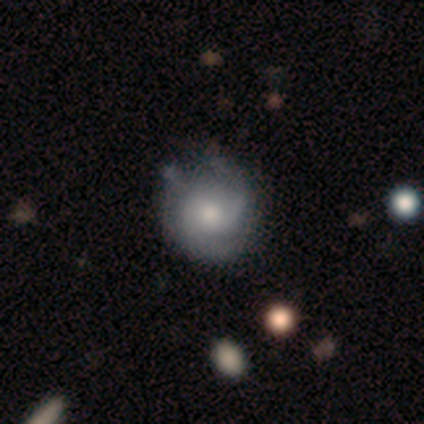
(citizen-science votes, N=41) Smooth or featured? 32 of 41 (78%) said featured or disk. Edge-on disk? 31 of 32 (97%) said no. Bar? 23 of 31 (74%) said no. Spiral arms? 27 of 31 (87%) said yes. Spiral winding? 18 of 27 (67%) said tight. Spiral arm count? 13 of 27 (48%) said 2. Bulge size? 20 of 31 (65%) said moderate. Merging? 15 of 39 (38%) said none.